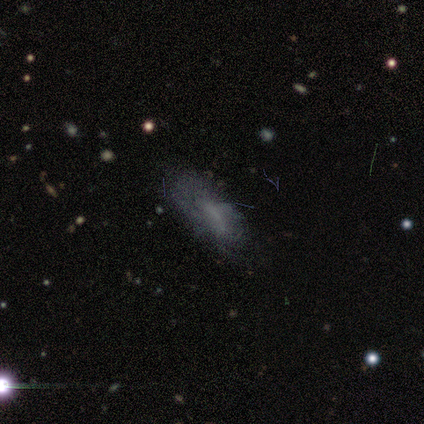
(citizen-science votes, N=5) Morphology: type=smooth (80%); roundness=in between (100%); merging=none (60%).